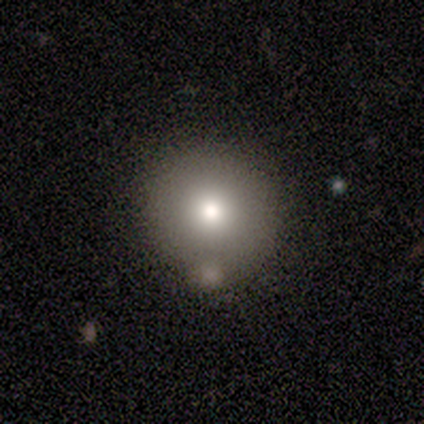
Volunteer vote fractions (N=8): Smooth or featured: smooth — 88% (featured or disk — 12%)
How rounded: round — 100%
Merging: none — 62% (minor disturbance — 38%)